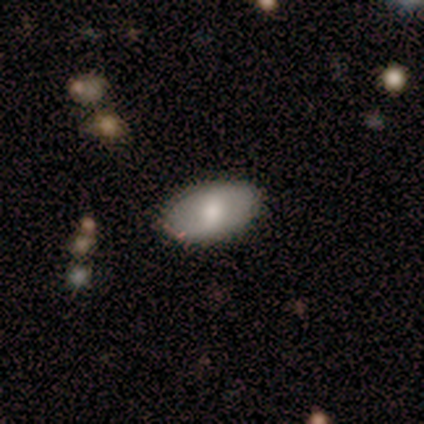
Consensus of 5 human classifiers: A smooth galaxy with no disk features (60%) that is in between round and cigar-shaped (67%). Merging: none (75%).